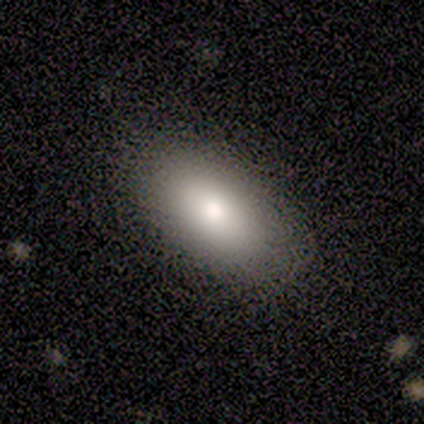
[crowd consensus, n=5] A smooth galaxy with no disk features (100%) that is in between round and cigar-shaped (80%).

Vote fractions:
- Smooth or featured? smooth: 100% / featured or disk: 0% / star or artifact: 0%
- How rounded? in between: 80% / cigar-shaped: 20% / round: 0%
- Merging? none: 100% / minor disturbance: 0% / major disturbance: 0% / merger: 0%